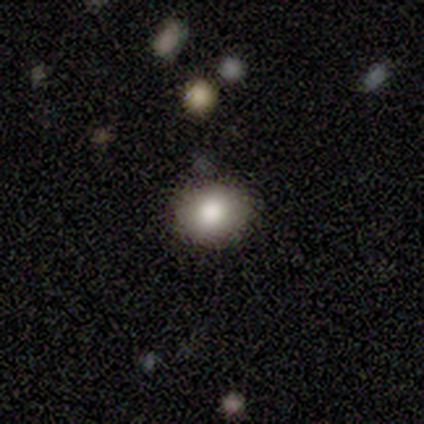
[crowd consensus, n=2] Smooth or featured?
  - smooth: 100% *
  - featured or disk: 0%
  - star or artifact: 0%
How rounded?
  - round: 100% *
  - in between: 0%
  - cigar-shaped: 0%
Merging?
  - none: 100% *
  - minor disturbance: 0%
  - major disturbance: 0%
  - merger: 0%